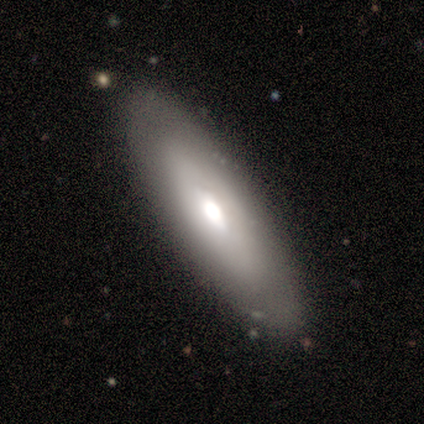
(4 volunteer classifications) Q: Smooth or featured?
A: smooth (50%); tied with: featured or disk (50%)
Q: How rounded?
A: in between (50%); tied with: cigar-shaped (50%)
Q: Merging?
A: none (100%)